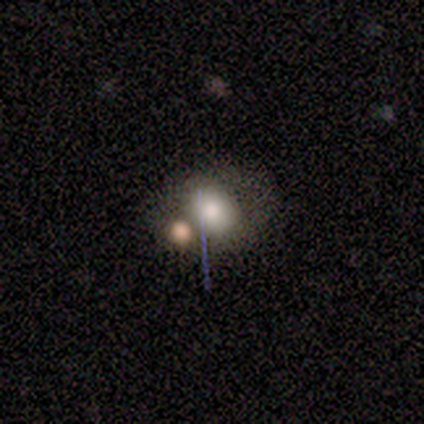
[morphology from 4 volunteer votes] This appears to be a smooth galaxy with no disk features (75%) that is round (100%). Merging: none (100%).